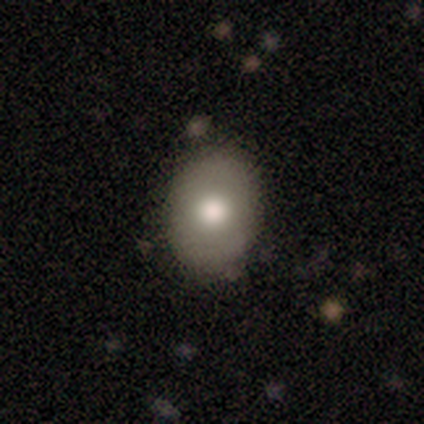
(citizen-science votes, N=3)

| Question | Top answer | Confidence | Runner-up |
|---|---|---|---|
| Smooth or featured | smooth | 100% | — |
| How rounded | round | 67% | in between (33%) |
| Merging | none | 67% | minor disturbance (33%) |